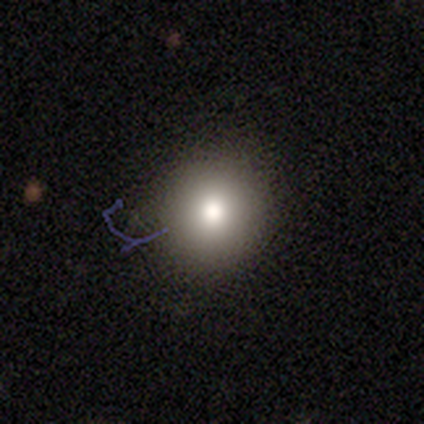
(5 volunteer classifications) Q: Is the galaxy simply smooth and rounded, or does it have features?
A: smooth — 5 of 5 (100%).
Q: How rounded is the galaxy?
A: round — 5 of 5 (100%).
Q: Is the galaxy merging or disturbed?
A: none — 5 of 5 (100%).